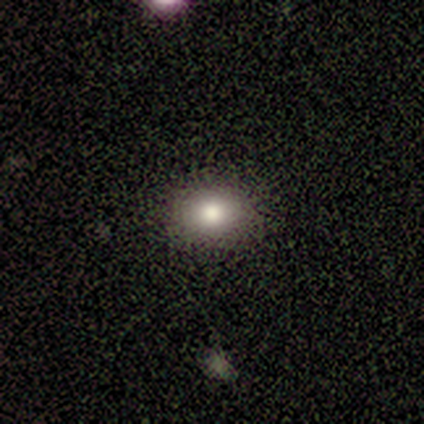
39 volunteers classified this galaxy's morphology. A smooth galaxy with no disk features (69%) that is round (56%).

Vote fractions:
- Smooth or featured? smooth: 69% / star or artifact: 21% / featured or disk: 10%
- How rounded? round: 56% / in between: 44% / cigar-shaped: 0%
- Merging? none: 81% / minor disturbance: 10% / merger: 10% / major disturbance: 0%